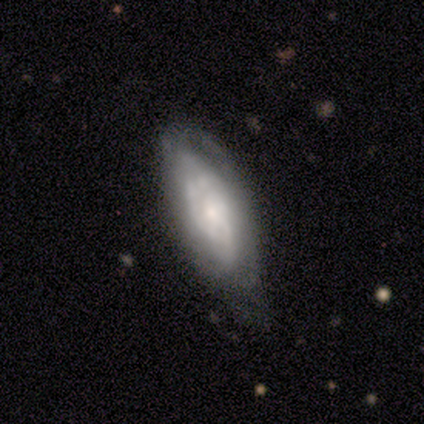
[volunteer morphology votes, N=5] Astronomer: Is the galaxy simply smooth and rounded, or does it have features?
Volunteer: smooth — 60% (runner-up: featured or disk, 40%).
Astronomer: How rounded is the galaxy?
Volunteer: in between — 67%.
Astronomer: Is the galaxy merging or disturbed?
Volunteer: none — 40%, tied with minor disturbance at 40%.